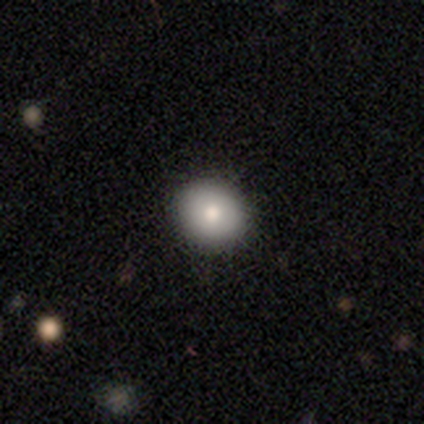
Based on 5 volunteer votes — A smooth galaxy with no disk features (80%) that is round (100%). Merging: none (80%).